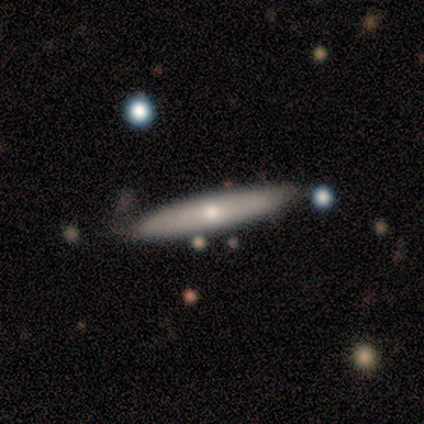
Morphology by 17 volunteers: Smooth or featured: featured or disk — 53% (smooth — 47%)
Edge-on disk: yes — 78% (no — 22%)
Edge-on bulge: rounded — 71% (none — 29%)
Merging: none — 53% (minor disturbance — 47%)